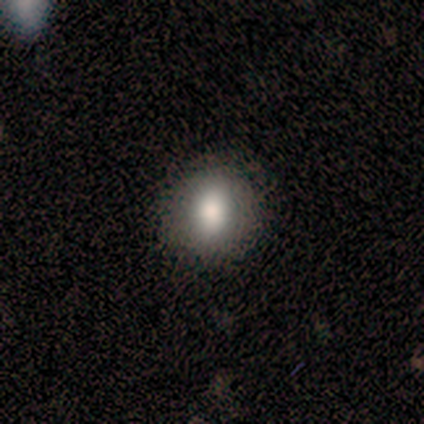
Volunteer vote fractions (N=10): Volunteers were most divided on "how rounded": round: 70%, in between: 30%, cigar-shaped: 0%. More confident: smooth or featured — smooth (100%); merging — none (100%).